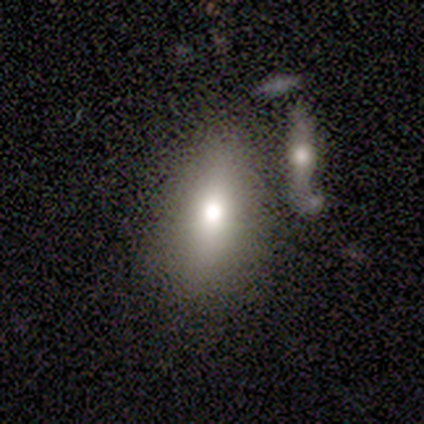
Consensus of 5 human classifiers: Smooth or featured? smooth (100%)
How rounded? in between (80%)
Merging? none (80%)